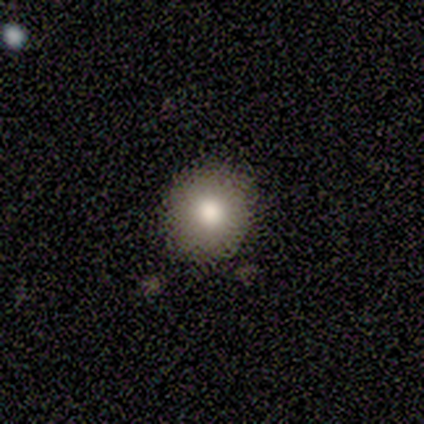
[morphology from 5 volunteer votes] Smooth or featured: smooth — 100%
How rounded: round — 100%
Merging: none — 100%